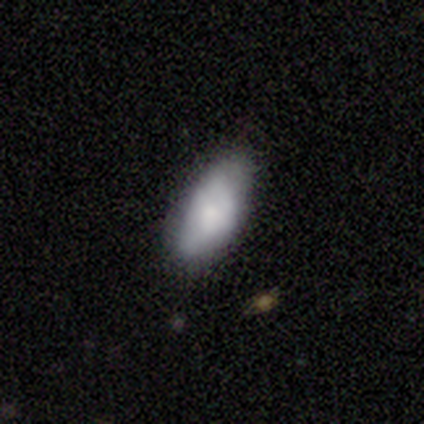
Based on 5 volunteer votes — This is likely a smooth galaxy (60%). How rounded: clearly in between (100%). Merging: likely none (60%).